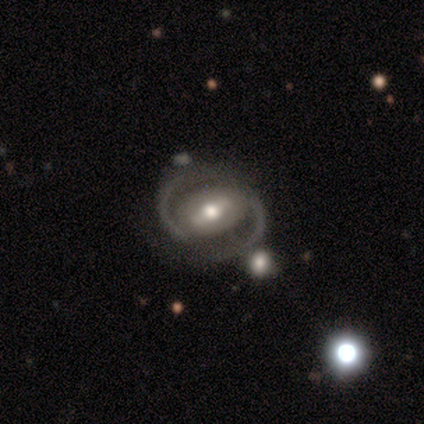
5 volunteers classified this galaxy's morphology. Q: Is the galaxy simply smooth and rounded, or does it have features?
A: featured or disk — 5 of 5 (100%).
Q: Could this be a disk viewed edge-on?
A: no — 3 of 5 (60%).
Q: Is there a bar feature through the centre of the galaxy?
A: weak — 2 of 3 (67%).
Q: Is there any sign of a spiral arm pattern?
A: yes — 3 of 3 (100%).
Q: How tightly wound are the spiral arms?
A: medium — 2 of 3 (67%).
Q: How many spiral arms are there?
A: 2 — 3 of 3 (100%).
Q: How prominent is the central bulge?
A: moderate — 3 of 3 (100%).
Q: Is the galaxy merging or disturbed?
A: none — 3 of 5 (60%).